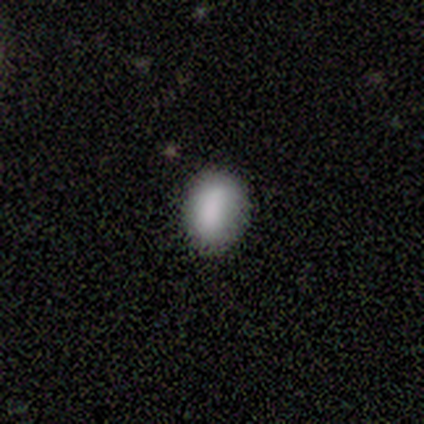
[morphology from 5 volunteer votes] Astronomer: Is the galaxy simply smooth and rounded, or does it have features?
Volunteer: smooth — 80%.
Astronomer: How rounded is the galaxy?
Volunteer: in between — 75%.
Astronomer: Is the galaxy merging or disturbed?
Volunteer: none — 80%.